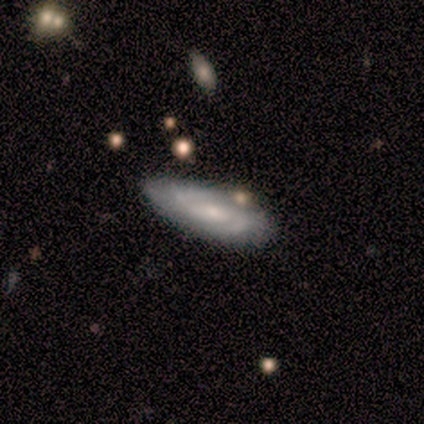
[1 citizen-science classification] A featured or disk galaxy (100%) with a weak bar (100%), 2 (100%) medium (100%) spiral arms (100%) and a moderate central bulge (100%).

Vote fractions:
- Smooth or featured? featured or disk: 100% / smooth: 0% / star or artifact: 0%
- Edge-on disk? no: 100% / yes: 0%
- Bar? weak: 100% / strong: 0% / no: 0%
- Spiral arms? yes: 100% / no: 0%
- Spiral winding? medium: 100% / tight: 0% / loose: 0%
- Spiral arm count? 2: 100% / 1: 0% / 3: 0% / 4: 0% / more than 4: 0% / can't tell: 0%
- Bulge size? moderate: 100% / dominant: 0% / large: 0% / small: 0% / none: 0%
- Merging? none: 100% / minor disturbance: 0% / major disturbance: 0% / merger: 0%